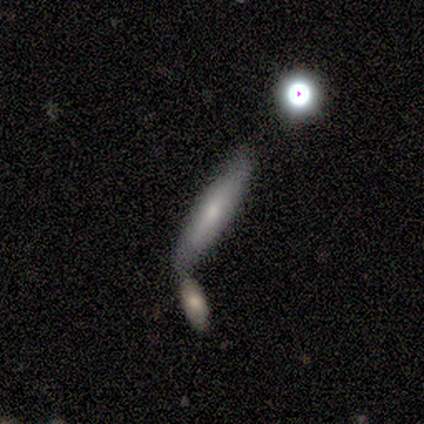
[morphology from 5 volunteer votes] Smooth or featured?
  - smooth: 80% *
  - featured or disk: 20%
  - star or artifact: 0%
How rounded?
  - cigar-shaped: 75% *
  - in between: 25%
  - round: 0%
Merging?
  - minor disturbance: 40% * (tied)
  - merger: 40% * (tied)
  - none: 20%
  - major disturbance: 0%